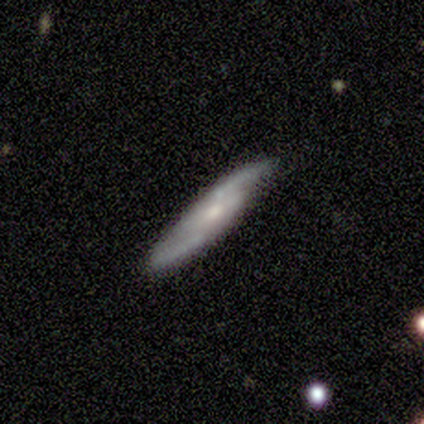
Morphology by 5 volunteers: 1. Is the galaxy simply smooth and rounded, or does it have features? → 80% featured or disk, 20% smooth, 0% star or artifact.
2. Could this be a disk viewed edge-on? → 75% yes, 25% no.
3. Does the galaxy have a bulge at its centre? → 67% rounded, 33% none, 0% boxy.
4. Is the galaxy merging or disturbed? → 100% none, 0% minor disturbance, 0% major disturbance, 0% merger.